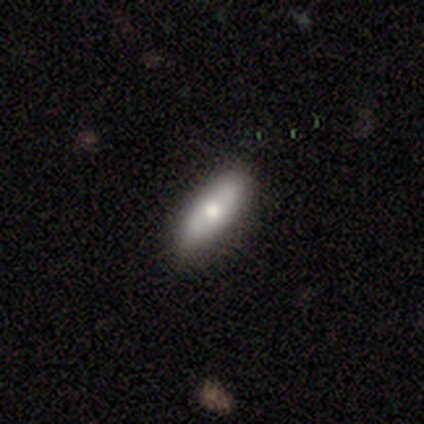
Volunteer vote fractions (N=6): Overall: smooth (83%). How rounded: in between (80%). Merging: none (100%).